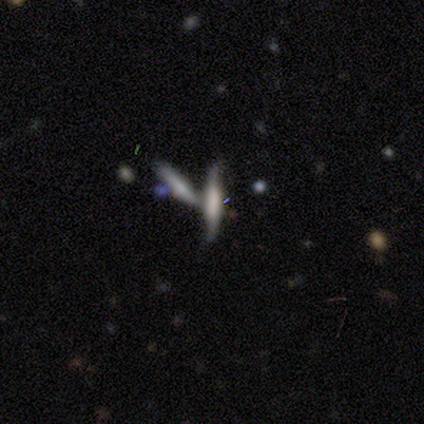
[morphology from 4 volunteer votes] A smooth galaxy with no disk features (75%) that is cigar-shaped (100%).

Vote fractions:
- Smooth or featured? smooth: 75% / featured or disk: 25% / star or artifact: 0%
- How rounded? cigar-shaped: 100% / round: 0% / in between: 0%
- Merging? none: 50% (tied) / merger: 50% (tied) / minor disturbance: 0% / major disturbance: 0%